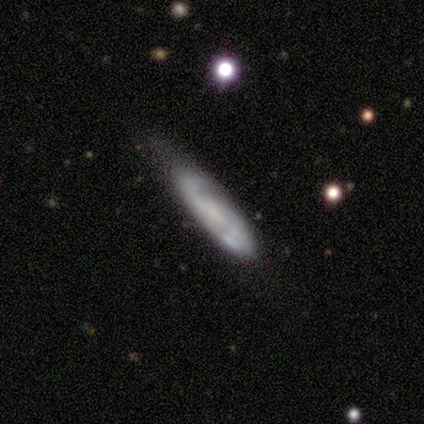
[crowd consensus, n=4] Q: Smooth or featured?
A: featured or disk (50%); runner-up: smooth (25%)
Q: Edge-on disk?
A: no (100%)
Q: Bar?
A: weak (100%)
Q: Spiral arms?
A: yes (100%)
Q: Spiral winding?
A: loose (100%)
Q: Spiral arm count?
A: 2 (100%)
Q: Bulge size?
A: small (100%)
Q: Merging?
A: minor disturbance (67%); runner-up: none (33%)